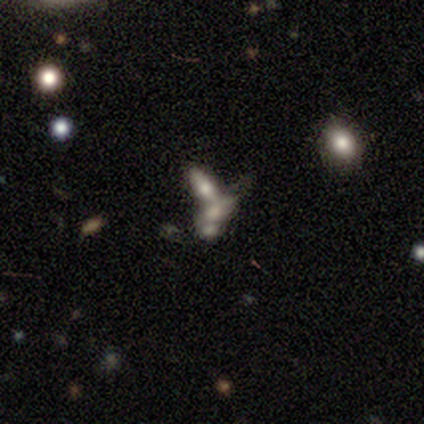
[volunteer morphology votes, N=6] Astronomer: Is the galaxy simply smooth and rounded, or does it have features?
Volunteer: featured or disk — 67%.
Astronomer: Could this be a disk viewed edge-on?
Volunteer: no — 100%.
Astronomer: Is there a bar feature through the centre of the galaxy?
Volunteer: no — 100%.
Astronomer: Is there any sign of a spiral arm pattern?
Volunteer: no — 100%.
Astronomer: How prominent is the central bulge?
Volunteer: moderate — 50%.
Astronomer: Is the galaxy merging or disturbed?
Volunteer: merger — 83%.